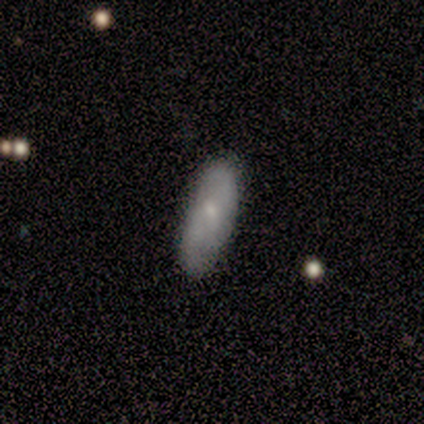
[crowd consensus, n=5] Morphology: type=smooth (80%); roundness=in between (75%); merging=none (60%).